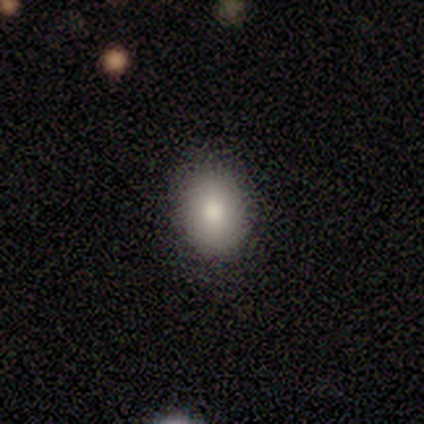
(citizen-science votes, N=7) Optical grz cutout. It shows a smooth galaxy with no disk features (86%) that is in between round and cigar-shaped (83%). Merging: none (83%).